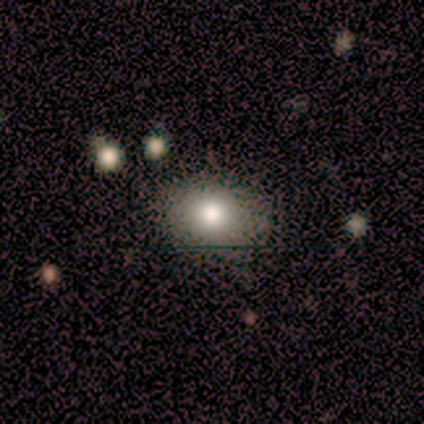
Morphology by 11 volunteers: Smooth or featured? smooth (45%)
How rounded? in between (60%)
Merging? none (86%)